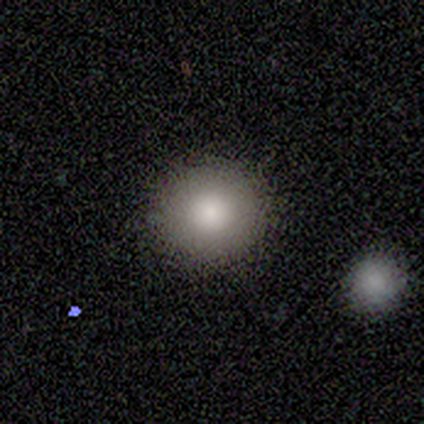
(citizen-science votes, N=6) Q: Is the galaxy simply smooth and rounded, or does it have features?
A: smooth — 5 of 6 (83%).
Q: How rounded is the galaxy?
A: round — 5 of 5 (100%).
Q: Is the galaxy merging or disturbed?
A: none — 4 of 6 (67%).